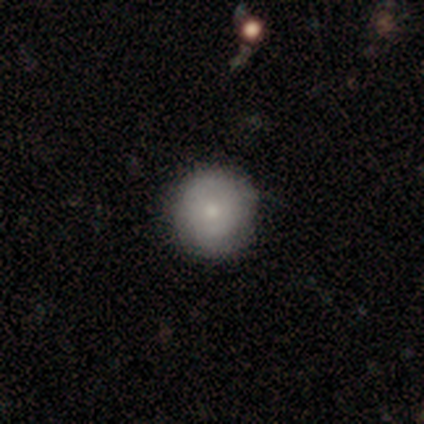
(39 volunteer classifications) smooth-or-featured: smooth: 69% | featured or disk: 26% | star or artifact: 5%
  how-rounded: round: 100% | in between: 0% | cigar-shaped: 0%
  merging: none: 92% | major disturbance: 5% | minor disturbance: 3% | merger: 0%